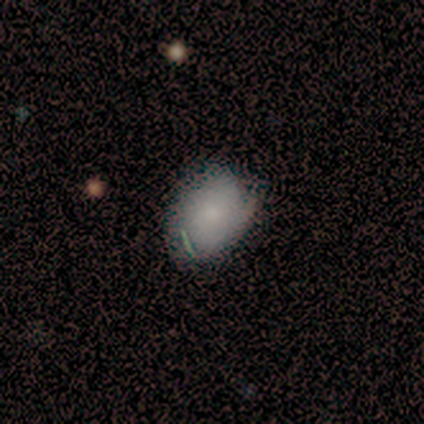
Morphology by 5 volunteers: Q: Smooth or featured?
A: smooth (60%); runner-up: featured or disk (40%)
Q: How rounded?
A: in between (100%)
Q: Merging?
A: minor disturbance (60%); runner-up: none (20%)